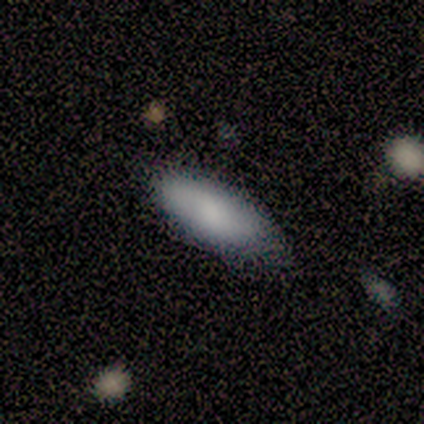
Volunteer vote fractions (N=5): This appears to be a smooth galaxy with no disk features (80%) that is in between round and cigar-shaped (100%). Merging: minor disturbance (50%).